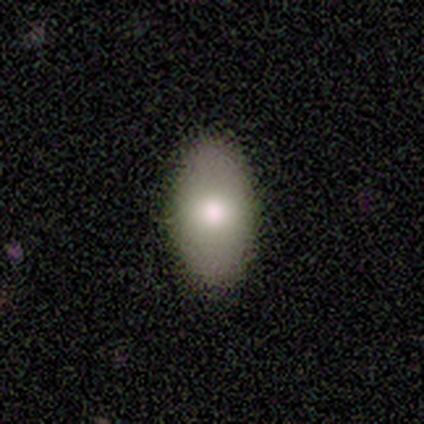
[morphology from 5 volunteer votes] smooth 100%, featured or disk 0%, star or artifact 0%. Down the decision tree: how rounded — in between (80%); merging — none (80%).